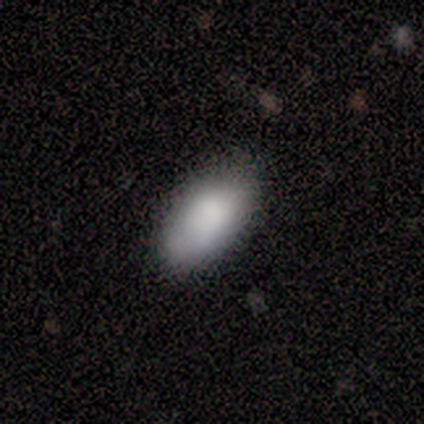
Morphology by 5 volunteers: Smooth or featured?
  - smooth: 80% *
  - star or artifact: 20%
  - featured or disk: 0%
How rounded?
  - in between: 100% *
  - round: 0%
  - cigar-shaped: 0%
Merging?
  - none: 100% *
  - minor disturbance: 0%
  - major disturbance: 0%
  - merger: 0%